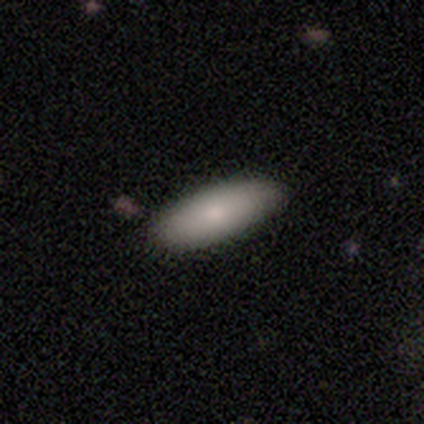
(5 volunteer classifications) Smooth or featured? smooth (60%)
How rounded? in between (100%)
Merging? none (80%)